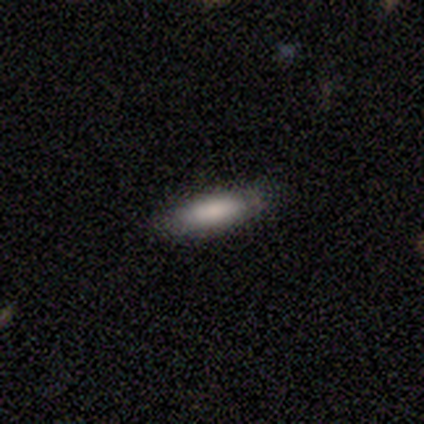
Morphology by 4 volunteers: Smooth or featured: smooth — 75% (star or artifact — 25%)
How rounded: in between — 100%
Merging: none — 100%